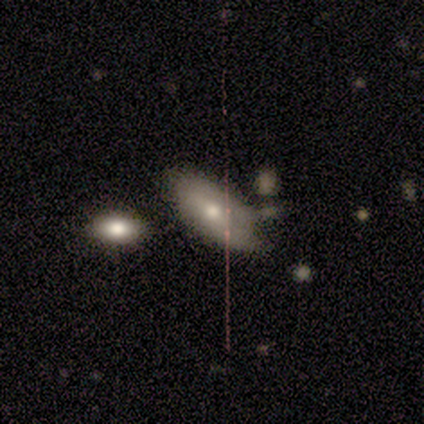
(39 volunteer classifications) Overall: smooth (62%; featured or disk 36%). How rounded: in between (96%). Merging: none (26%, tied with minor disturbance).